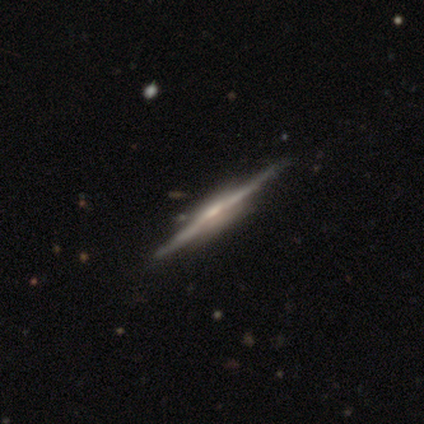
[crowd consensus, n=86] smooth-or-featured: featured or disk: 93% | smooth: 6% | star or artifact: 1%
  disk-edge-on: yes: 96% | no: 4%
    edge-on-bulge: rounded: 48% | boxy: 38% | none: 14%
  merging: none: 84% | minor disturbance: 11% | merger: 5% | major disturbance: 1%